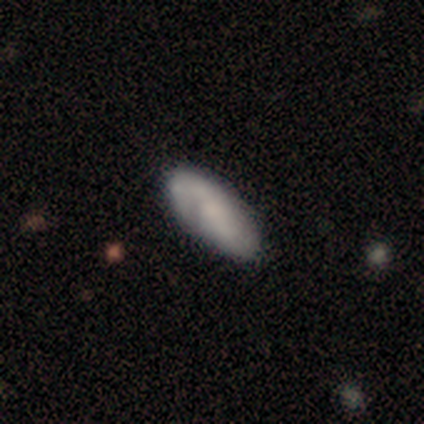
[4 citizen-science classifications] Overall: smooth (50%, tied with featured or disk). How rounded: in between (100%). Merging: none (75%).